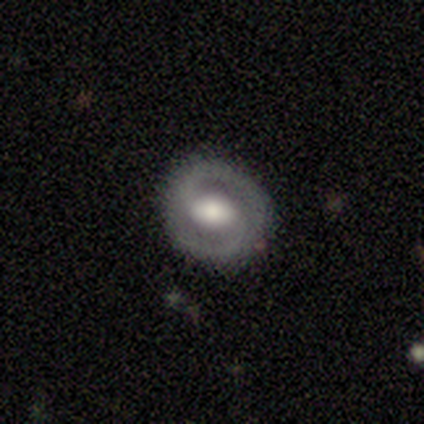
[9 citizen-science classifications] Smooth or featured: featured or disk — 100%
Edge-on disk: no — 100%
Bar: weak — 44% (tied with no — 44%)
Spiral arms: yes — 67% (no — 33%)
Spiral winding: tight — 50% (medium — 33%)
Spiral arm count: 2 — 83% (1 — 17%)
Bulge size: moderate — 56% (large — 33%)
Merging: none — 100%